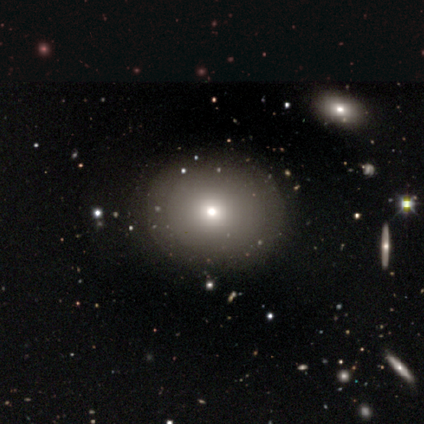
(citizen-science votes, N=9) This appears to be a smooth galaxy with no disk features (67%) that is round (83%). Merging: none (100%).